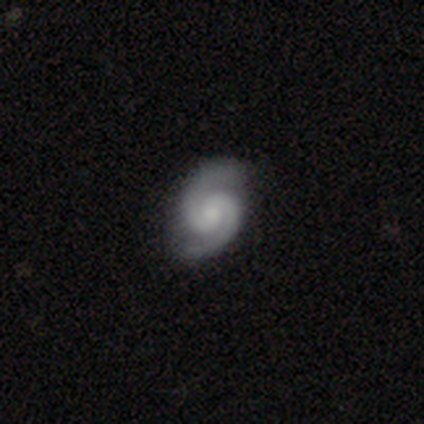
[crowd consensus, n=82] Q: Smooth or featured?
A: featured or disk (90%); runner-up: smooth (5%)
Q: Edge-on disk?
A: no (100%)
Q: Bar?
A: no (55%); runner-up: weak (39%)
Q: Spiral arms?
A: yes (97%); runner-up: no (3%)
Q: Spiral winding?
A: tight (47%); tied with: medium (47%)
Q: Spiral arm count?
A: 2 (100%)
Q: Bulge size?
A: small (49%); runner-up: moderate (32%)
Q: Merging?
A: none (94%); runner-up: minor disturbance (5%)